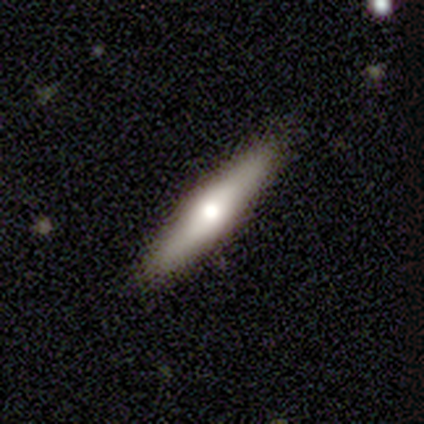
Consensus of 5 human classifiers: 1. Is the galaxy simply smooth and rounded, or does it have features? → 60% smooth, 40% featured or disk, 0% star or artifact.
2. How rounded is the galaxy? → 67% cigar-shaped, 33% in between, 0% round.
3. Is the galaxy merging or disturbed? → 100% none, 0% minor disturbance, 0% major disturbance, 0% merger.